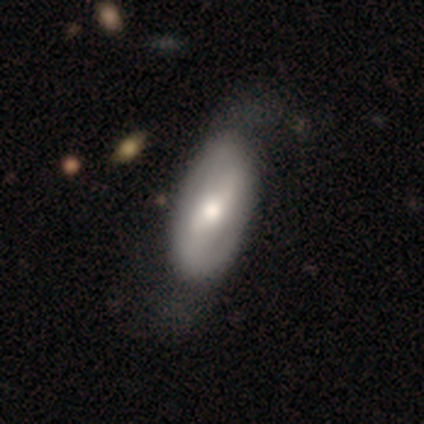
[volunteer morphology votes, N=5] Q: Smooth or featured?
A: featured or disk (80%); runner-up: smooth (20%)
Q: Edge-on disk?
A: no (75%); runner-up: yes (25%)
Q: Bar?
A: weak (67%); runner-up: no (33%)
Q: Spiral arms?
A: no (67%); runner-up: yes (33%)
Q: Bulge size?
A: dominant (33%); tied with: moderate (33%); small (33%)
Q: Merging?
A: none (60%); runner-up: minor disturbance (40%)